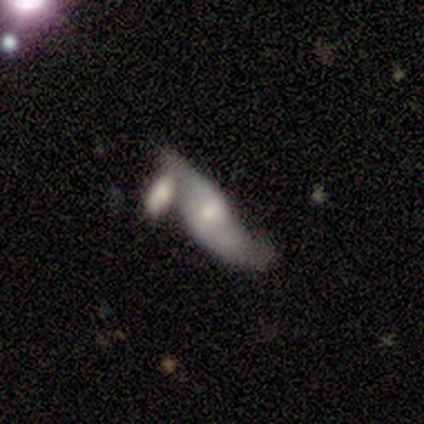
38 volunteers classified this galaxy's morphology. Overall: featured or disk (58%; smooth 34%). Edge-on disk: no (77%). Bar: weak (59%; no 35%). Spiral arms: yes (71%). Spiral arm count: 2 (83%). Spiral winding: loose (75%). Bulge size: moderate (47%, tied with small). Merging: merger (54%; none 20%).